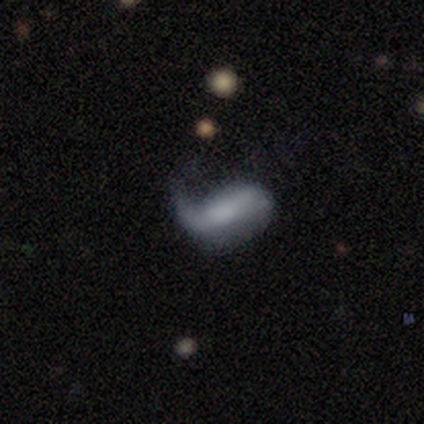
A featured or disk galaxy (60%) with a strong bar (50%, tied with no), 1 (100%) loose (100%) spiral arms (100%) and no central bulge (100%).

Vote fractions:
- Smooth or featured? featured or disk: 60% / smooth: 40% / star or artifact: 0%
- Edge-on disk? no: 67% / yes: 33%
- Bar? strong: 50% (tied) / no: 50% (tied) / weak: 0%
- Spiral arms? yes: 100% / no: 0%
- Spiral winding? loose: 100% / tight: 0% / medium: 0%
- Spiral arm count? 1: 100% / 2: 0% / 3: 0% / 4: 0% / more than 4: 0% / can't tell: 0%
- Bulge size? none: 100% / dominant: 0% / large: 0% / moderate: 0% / small: 0%
- Merging? minor disturbance: 40% (tied) / major disturbance: 40% (tied) / none: 20% / merger: 0%